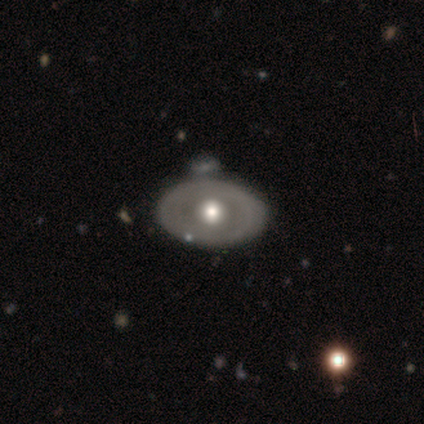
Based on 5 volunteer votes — smooth-or-featured: featured or disk: 80% | smooth: 20% | star or artifact: 0%
  disk-edge-on: no: 75% | yes: 25%
    bar: no: 100% | strong: 0% | weak: 0%
    has-spiral-arms: no: 100% | yes: 0%
    bulge-size: large: 33% (tied) | moderate: 33% (tied) | small: 33% (tied) | dominant: 0% | none: 0%
  merging: none: 60% | minor disturbance: 40% | major disturbance: 0% | merger: 0%